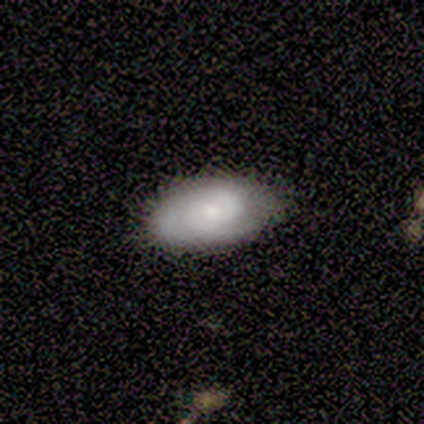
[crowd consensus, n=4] Volunteers were most divided on "smooth or featured": smooth: 75%, featured or disk: 25%, star or artifact: 0%. More confident: how rounded — in between (100%); merging — none (75%).